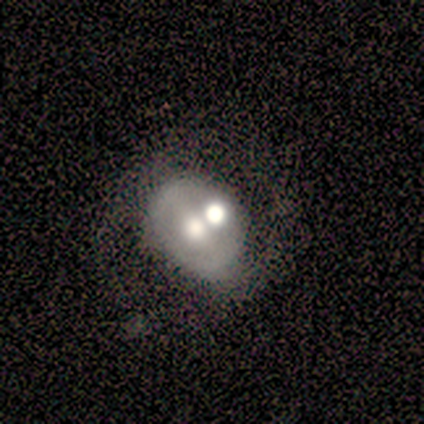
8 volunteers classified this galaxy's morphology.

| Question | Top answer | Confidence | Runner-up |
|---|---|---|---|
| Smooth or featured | featured or disk | 62% | smooth (25%) |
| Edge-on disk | no | 100% | — |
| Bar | no | 60% | weak (40%) |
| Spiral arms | no | 100% | — |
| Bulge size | large | 40% | tied: moderate (40%) |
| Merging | merger | 43% | none (29%) |